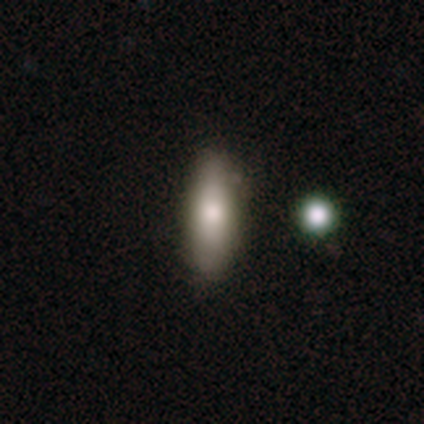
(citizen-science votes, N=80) This is likely a smooth galaxy (76%). How rounded: possibly cigar-shaped (51%). Merging: marginally none (42%).